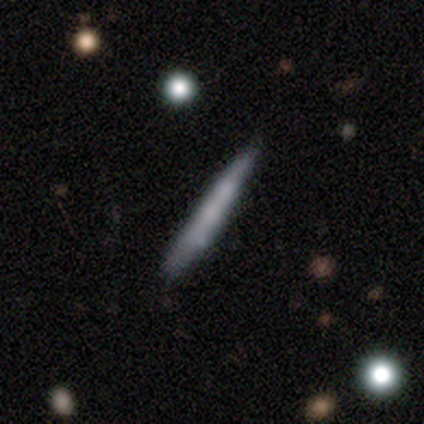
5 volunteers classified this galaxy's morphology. Smooth or featured? 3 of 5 (60%) said smooth. How rounded? 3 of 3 (100%) said cigar-shaped. Merging? 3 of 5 (60%) said none.